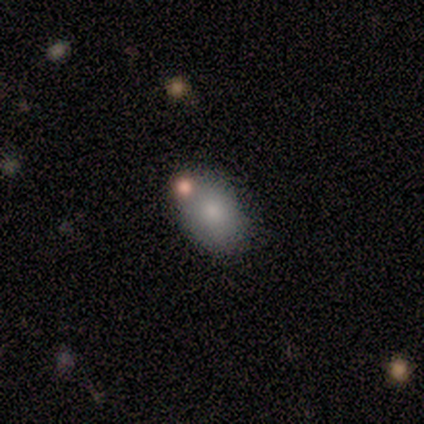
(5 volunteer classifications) A smooth galaxy with no disk features (100%) that is in between round and cigar-shaped (100%). Merging: none (80%).